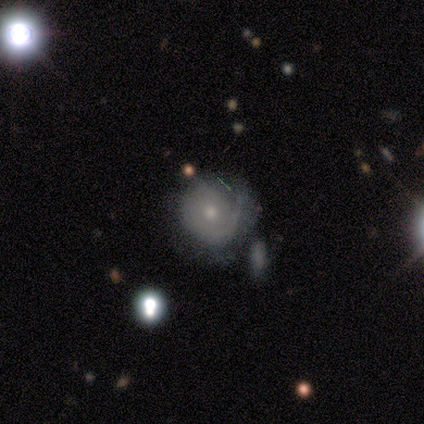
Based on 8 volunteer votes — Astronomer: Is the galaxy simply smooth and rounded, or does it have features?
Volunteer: featured or disk — 75%.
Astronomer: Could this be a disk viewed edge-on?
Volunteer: no — 100%.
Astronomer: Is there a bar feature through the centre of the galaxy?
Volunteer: no — 100%.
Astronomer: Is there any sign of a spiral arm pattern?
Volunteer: yes — 100%.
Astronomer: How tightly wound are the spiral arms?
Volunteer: tight — 100%.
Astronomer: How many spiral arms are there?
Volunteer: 1 — 50%, tied with can't tell at 50%.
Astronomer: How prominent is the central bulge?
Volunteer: small — 67%.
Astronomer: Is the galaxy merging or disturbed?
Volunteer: none — 88%.